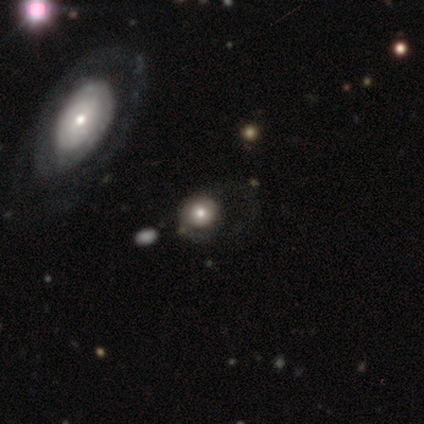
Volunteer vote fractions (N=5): Smooth or featured? 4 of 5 (80%) said smooth. How rounded? 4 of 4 (100%) said round. Merging? 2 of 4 (50%, tied with major disturbance) said none.